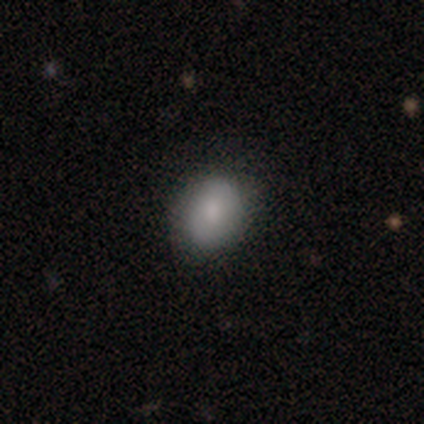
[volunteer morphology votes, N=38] Smooth or featured? 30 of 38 (79%) said smooth. How rounded? 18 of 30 (60%) said in between. Merging? 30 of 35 (86%) said none.